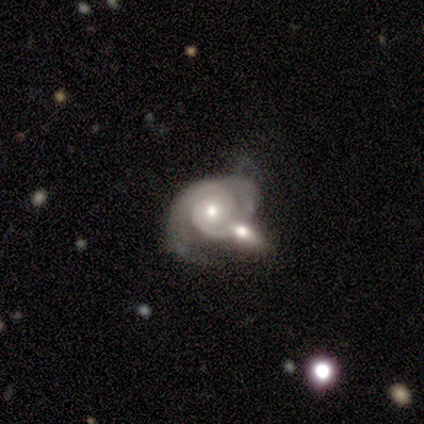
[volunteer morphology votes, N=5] A featured or disk galaxy (80%) with no bar (50%), 2 (75%) tight (100%) spiral arms (100%) and a moderate central bulge (50%, tied with small). Merging: none (50%).